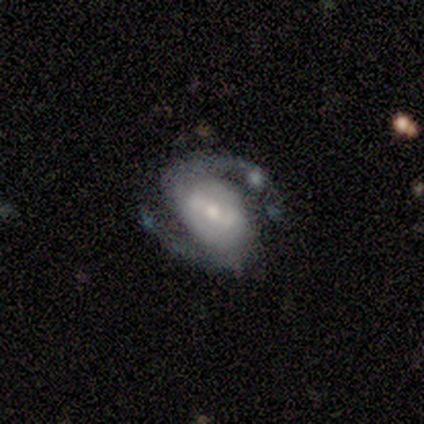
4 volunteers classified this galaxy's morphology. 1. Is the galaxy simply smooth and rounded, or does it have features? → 100% featured or disk, 0% smooth, 0% star or artifact.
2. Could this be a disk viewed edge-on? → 100% no, 0% yes.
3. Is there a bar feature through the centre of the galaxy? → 75% no, 25% weak, 0% strong.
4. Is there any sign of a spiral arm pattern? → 100% yes, 0% no.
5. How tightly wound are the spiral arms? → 50% loose, 25% tight, 25% medium.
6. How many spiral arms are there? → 75% 2, 25% can't tell, 0% 1, 0% 3, 0% 4, 0% more than 4.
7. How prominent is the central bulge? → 50% small, 25% large, 25% moderate, 0% dominant, 0% none.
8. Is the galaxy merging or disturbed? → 100% none, 0% minor disturbance, 0% major disturbance, 0% merger.